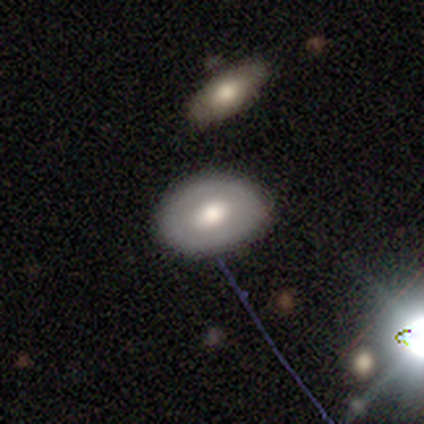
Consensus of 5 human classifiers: A smooth galaxy with no disk features (60%) that is in between round and cigar-shaped (100%). Merging: none (60%).